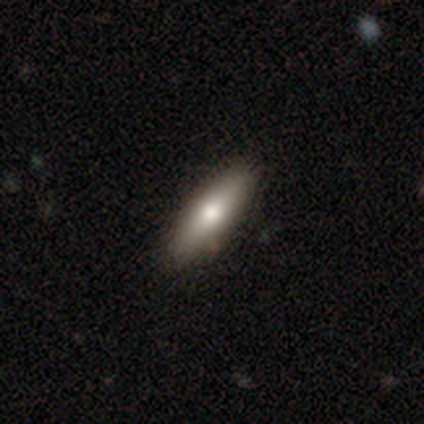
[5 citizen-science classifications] Morphology: type=smooth (60%); roundness=cigar-shaped (100%); merging=none (100%).